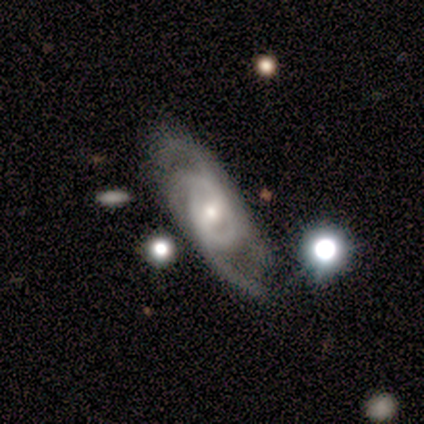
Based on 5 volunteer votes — Smooth or featured?
  - featured or disk: 80% *
  - smooth: 20%
  - star or artifact: 0%
Edge-on disk?
  - no: 100% *
  - yes: 0%
Bar?
  - weak: 75% *
  - no: 25%
  - strong: 0%
Spiral arms?
  - yes: 100% *
  - no: 0%
Spiral winding?
  - loose: 75% *
  - medium: 25%
  - tight: 0%
Spiral arm count?
  - 2: 50% * (tied)
  - 3: 50% * (tied)
  - 1: 0%
  - 4: 0%
  - more than 4: 0%
  - can't tell: 0%
Bulge size?
  - moderate: 75% *
  - small: 25%
  - dominant: 0%
  - large: 0%
  - none: 0%
Merging?
  - none: 60% *
  - minor disturbance: 20%
  - major disturbance: 20%
  - merger: 0%